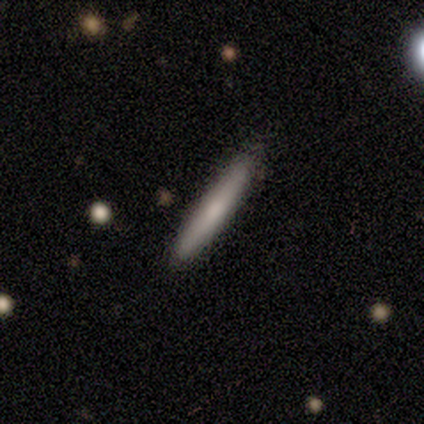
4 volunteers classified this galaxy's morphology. Smooth or featured: smooth — 50% (tied with featured or disk — 50%)
How rounded: cigar-shaped — 100%
Merging: none — 75% (minor disturbance — 25%)